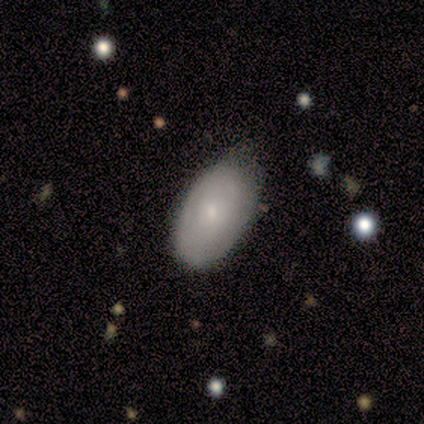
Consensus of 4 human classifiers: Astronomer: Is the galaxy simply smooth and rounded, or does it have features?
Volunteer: smooth — 100%.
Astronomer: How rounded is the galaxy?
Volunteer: in between — 100%.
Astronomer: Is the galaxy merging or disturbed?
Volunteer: none — 50%, tied with minor disturbance at 50%.